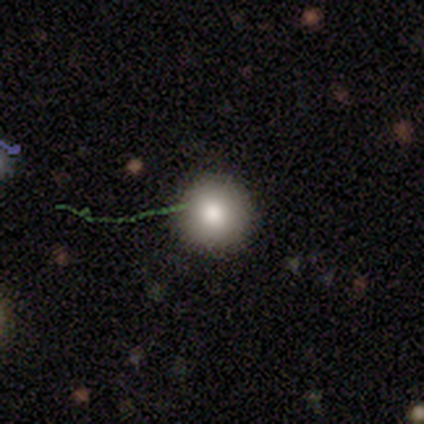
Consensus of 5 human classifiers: Volunteers were most divided on "merging": none: 75%, minor disturbance: 25%, major disturbance: 0%, merger: 0%. More confident: how rounded — round (100%); smooth or featured — smooth (80%).